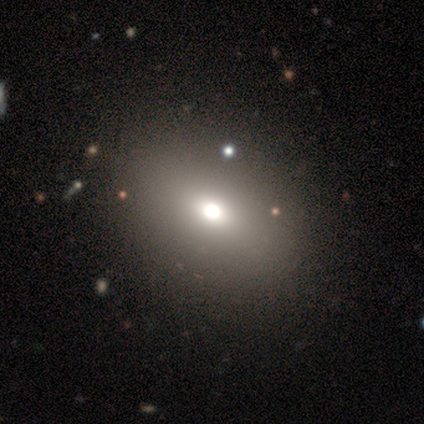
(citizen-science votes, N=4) A smooth galaxy with no disk features (50%) that is round (50%, tied with in between). Merging: none (67%).